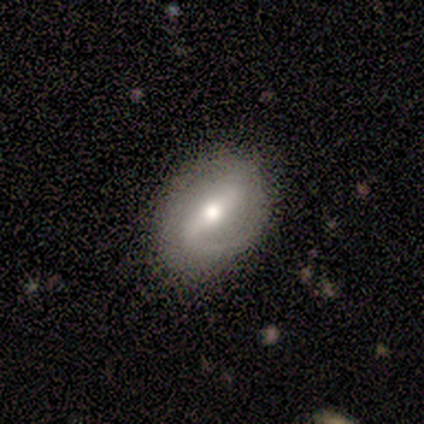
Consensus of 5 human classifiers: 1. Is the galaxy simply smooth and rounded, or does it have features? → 60% featured or disk, 40% smooth, 0% star or artifact.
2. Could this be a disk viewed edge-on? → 67% no, 33% yes.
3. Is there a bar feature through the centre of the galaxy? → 100% strong, 0% weak, 0% no.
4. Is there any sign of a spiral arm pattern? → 100% yes, 0% no.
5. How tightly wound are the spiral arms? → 50% tight (tied), 50% loose (tied), 0% medium.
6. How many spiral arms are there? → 50% 1 (tied), 50% 2 (tied), 0% 3, 0% 4, 0% more than 4, 0% can't tell.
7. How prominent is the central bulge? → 50% moderate (tied), 50% small (tied), 0% dominant, 0% large, 0% none.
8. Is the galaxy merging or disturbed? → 80% none, 20% minor disturbance, 0% major disturbance, 0% merger.